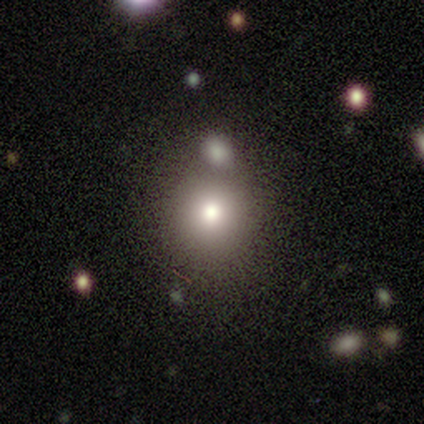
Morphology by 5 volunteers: Smooth or featured?
  - smooth: 60% *
  - featured or disk: 20%
  - star or artifact: 20%
How rounded?
  - round: 100% *
  - in between: 0%
  - cigar-shaped: 0%
Merging?
  - merger: 50% *
  - none: 25%
  - minor disturbance: 25%
  - major disturbance: 0%